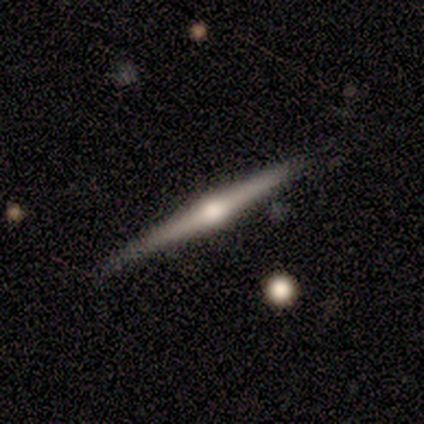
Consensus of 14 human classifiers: featured or disk 86%, smooth 14%, star or artifact 0%. Down the decision tree: edge-on disk — yes (100%); edge-on bulge — rounded (92%); merging — none (79%).